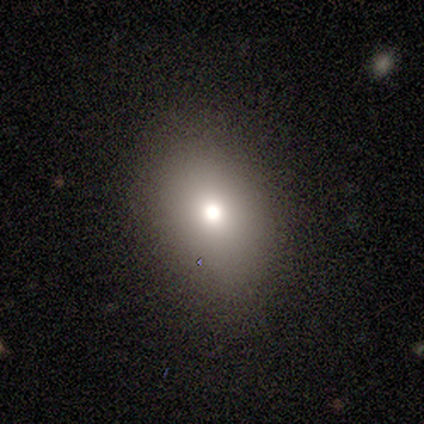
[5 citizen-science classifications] Smooth or featured: smooth — 80% (featured or disk — 20%)
How rounded: in between — 100%
Merging: none — 80% (minor disturbance — 20%)